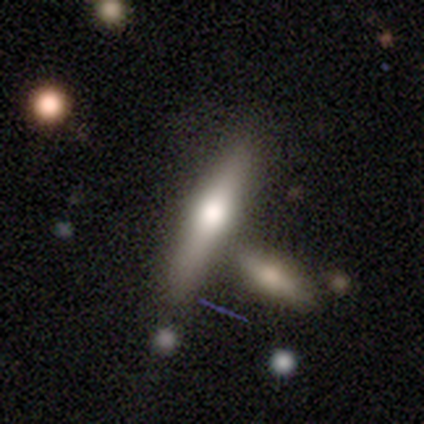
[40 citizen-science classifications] Smooth or featured? smooth (48%)
How rounded? cigar-shaped (89%)
Merging? none (67%)